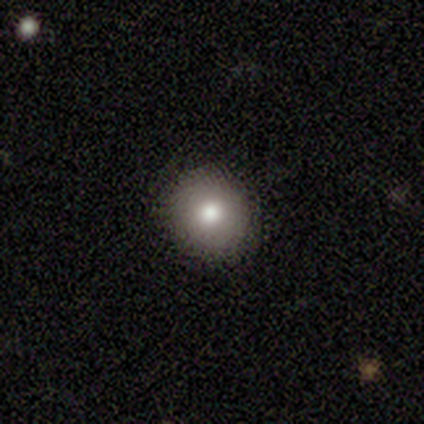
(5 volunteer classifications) Morphology: type=smooth (100%); roundness=round (80%); merging=none (100%).